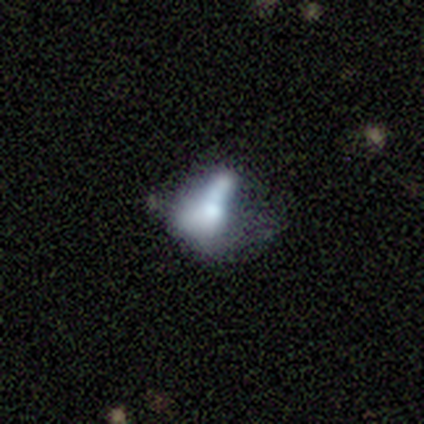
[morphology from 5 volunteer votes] smooth-or-featured: featured or disk: 100% | smooth: 0% | star or artifact: 0%
  disk-edge-on: no: 100% | yes: 0%
    bar: no: 80% | strong: 20% | weak: 0%
    has-spiral-arms: no: 100% | yes: 0%
    bulge-size: moderate: 40% | dominant: 20% | large: 20% | none: 20% | small: 0%
  merging: major disturbance: 80% | none: 20% | minor disturbance: 0% | merger: 0%